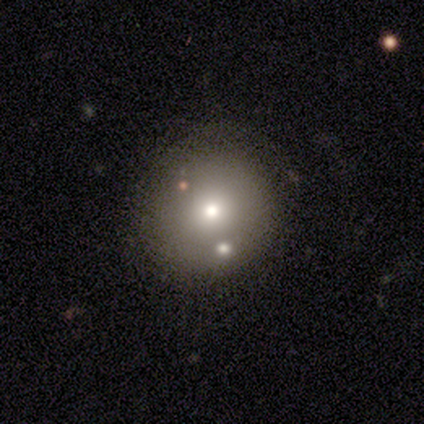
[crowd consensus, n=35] A smooth galaxy with no disk features (60%) that is round (100%). Merging: none (89%).